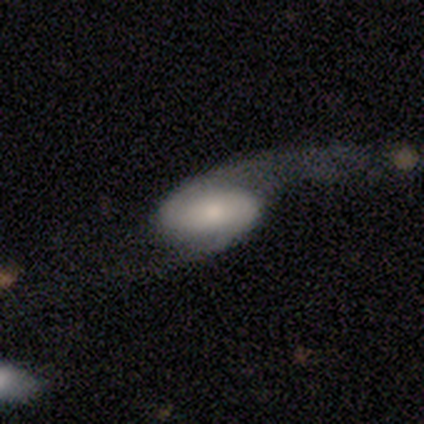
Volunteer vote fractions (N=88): smooth_or_featured: featured or disk (p=0.66) [alt: smooth p=0.25]
disk_edge_on: no (p=0.97) [alt: yes p=0.03]
bar: no (p=0.61) [alt: strong p=0.20]
has_spiral_arms: yes (p=0.91) [alt: no p=0.09]
spiral_winding: loose (p=0.82) [alt: tight p=0.10]
spiral_arm_count: 2 (p=0.84) [alt: 1 p=0.08]
bulge_size: moderate (p=0.46) [alt: small p=0.38]
merging: major disturbance (p=0.46) [alt: none p=0.36]